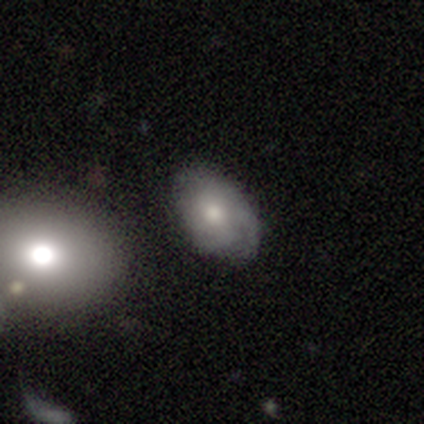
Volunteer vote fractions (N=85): A smooth galaxy with no disk features (51%) that is in between round and cigar-shaped (91%).

Vote fractions:
- Smooth or featured? smooth: 51% / featured or disk: 45% / star or artifact: 5%
- How rounded? in between: 91% / round: 9% / cigar-shaped: 0%
- Merging? none: 72% / minor disturbance: 16% / major disturbance: 6% / merger: 6%